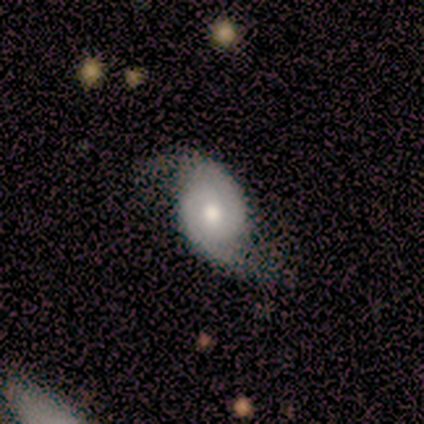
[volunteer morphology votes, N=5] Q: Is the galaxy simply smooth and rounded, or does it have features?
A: featured or disk — 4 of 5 (80%).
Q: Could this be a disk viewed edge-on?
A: no — 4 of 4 (100%).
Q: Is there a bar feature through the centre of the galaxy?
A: weak — 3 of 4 (75%).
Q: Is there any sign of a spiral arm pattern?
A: yes — 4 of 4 (100%).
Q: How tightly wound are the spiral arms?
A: loose — 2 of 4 (50%).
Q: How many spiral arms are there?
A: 2 — 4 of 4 (100%).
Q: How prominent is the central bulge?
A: moderate — 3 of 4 (75%).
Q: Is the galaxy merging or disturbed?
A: none — 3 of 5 (60%).